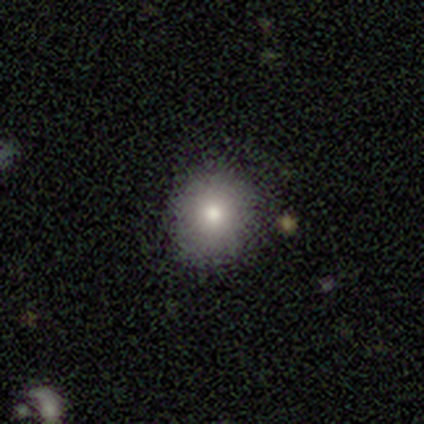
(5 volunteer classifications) A smooth galaxy with no disk features (80%) that is round (100%). Merging: none (100%).